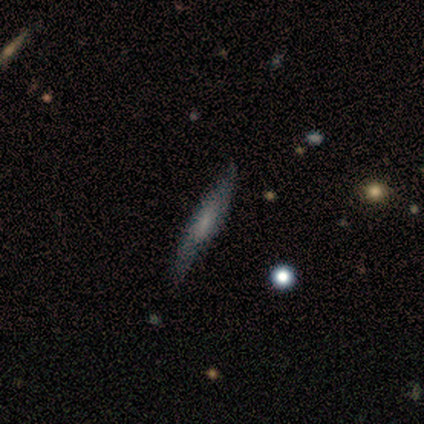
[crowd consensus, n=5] This is likely a smooth galaxy (60%). How rounded: clearly cigar-shaped (100%). Merging: clearly none (80%).